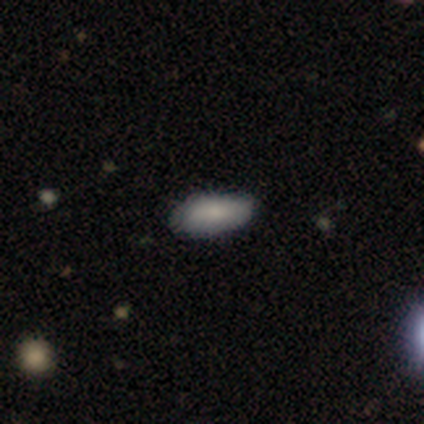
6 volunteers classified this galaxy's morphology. This is clearly a smooth galaxy (100%). How rounded: possibly in between (50%, tied with cigar-shaped). Merging: clearly none (83%).